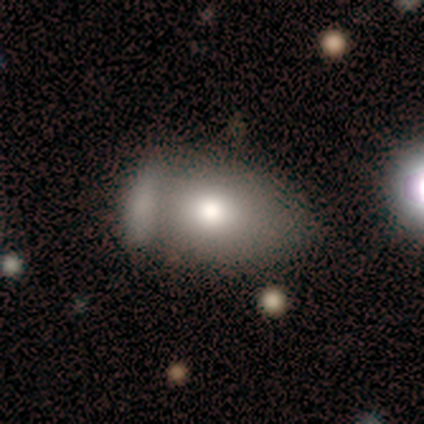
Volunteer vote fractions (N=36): Smooth or featured? smooth (58%)
How rounded? in between (81%)
Merging? merger (39%)